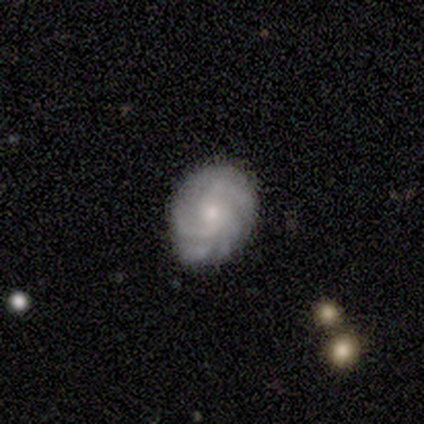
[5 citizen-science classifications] Smooth or featured? 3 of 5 (60%) said featured or disk. Edge-on disk? 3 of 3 (100%) said no. Bar? 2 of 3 (67%) said no. Spiral arms? 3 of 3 (100%) said yes. Spiral winding? 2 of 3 (67%) said tight. Spiral arm count? 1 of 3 (33%, tied with 4 and more than 4) said 2. Bulge size? 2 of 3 (67%) said small. Merging? 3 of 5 (60%) said none.